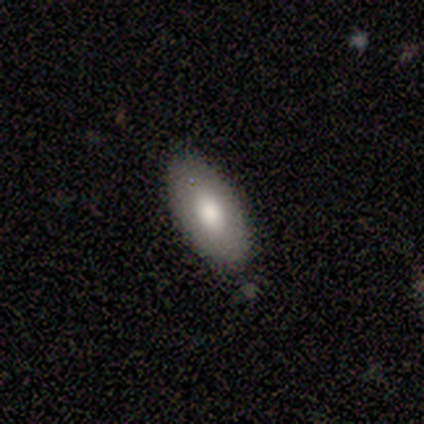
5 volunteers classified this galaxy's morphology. Smooth or featured? 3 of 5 (60%) said smooth. How rounded? 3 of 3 (100%) said in between. Merging? 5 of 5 (100%) said none.